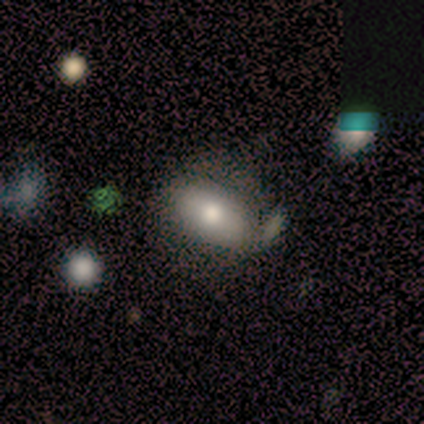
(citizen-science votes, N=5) Q: Smooth or featured?
A: smooth (40%); tied with: featured or disk (40%)
Q: How rounded?
A: in between (100%)
Q: Merging?
A: none (50%); tied with: major disturbance (50%)